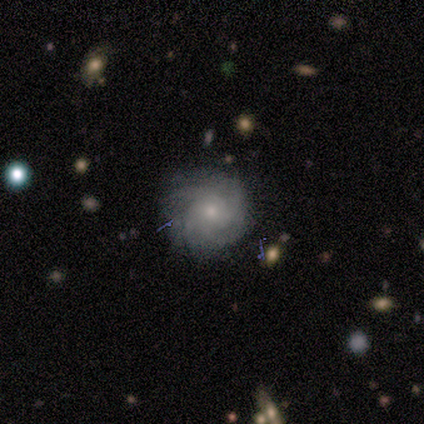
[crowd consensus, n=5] Morphology: type=featured or disk (80%); edge-on=no (100%); bar=no (75%); spiral arms=yes (100%); winding=tight (75%); arm count=can't tell (75%); bulge=small (75%); merging=none (100%).